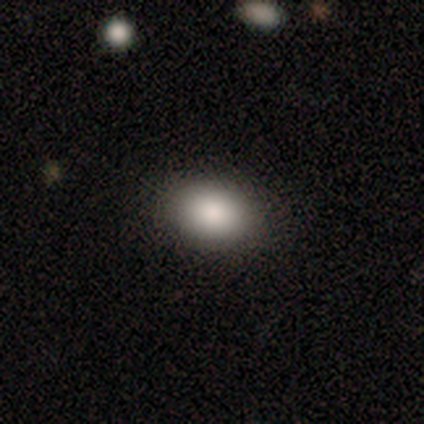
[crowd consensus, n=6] This is clearly a smooth galaxy (100%). How rounded: likely in between (67%). Merging: clearly none (100%).